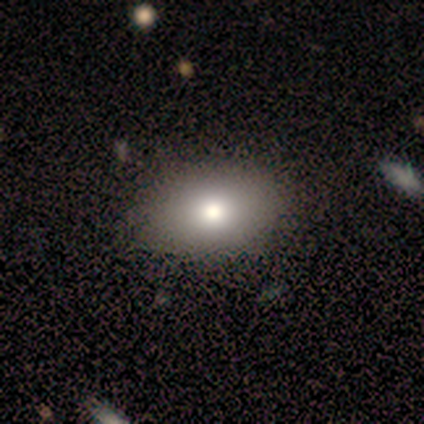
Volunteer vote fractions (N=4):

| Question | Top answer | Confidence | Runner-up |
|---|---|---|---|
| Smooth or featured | featured or disk | 50% | smooth (25%) |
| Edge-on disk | no | 100% | — |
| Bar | no | 100% | — |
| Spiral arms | no | 100% | — |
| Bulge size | moderate | 100% | — |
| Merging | none | 100% | — |